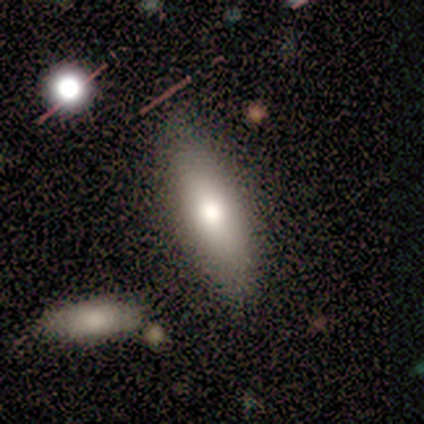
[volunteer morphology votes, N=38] smooth-or-featured: smooth: 68% | featured or disk: 26% | star or artifact: 5%
  how-rounded: in between: 69% | cigar-shaped: 31% | round: 0%
  merging: none: 86% | minor disturbance: 11% | major disturbance: 3% | merger: 0%